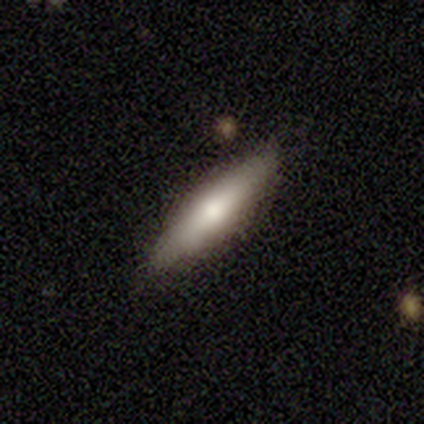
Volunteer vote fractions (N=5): This appears to be a featured or disk galaxy (60%) viewed edge-on (67%) with a rounded central bulge (100%). Merging: none (80%).